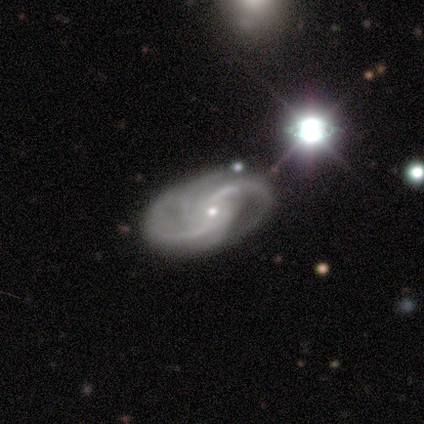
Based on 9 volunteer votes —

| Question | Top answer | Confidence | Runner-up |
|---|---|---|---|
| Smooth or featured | featured or disk | 100% | — |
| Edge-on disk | no | 89% | yes (11%) |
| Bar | no | 88% | weak (12%) |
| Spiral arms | yes | 100% | — |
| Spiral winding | medium | 62% | loose (25%) |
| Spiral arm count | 2 | 38% | tied: can't tell (38%) |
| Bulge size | small | 88% | moderate (12%) |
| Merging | none | 67% | major disturbance (22%) |